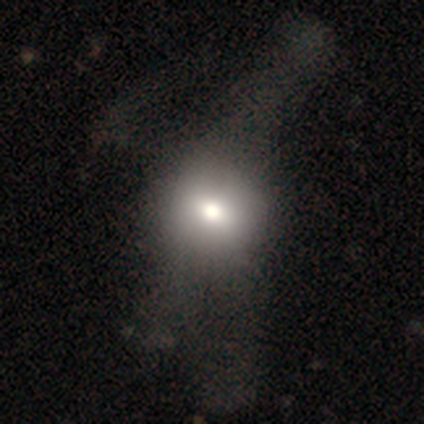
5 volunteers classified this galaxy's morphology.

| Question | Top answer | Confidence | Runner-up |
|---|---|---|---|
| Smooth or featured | smooth | 80% | star or artifact (20%) |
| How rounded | round | 75% | in between (25%) |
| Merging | minor disturbance | 50% | none (25%) |